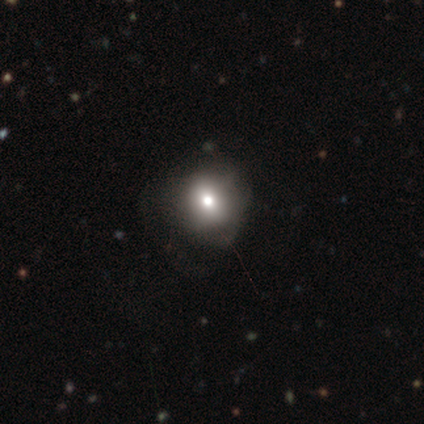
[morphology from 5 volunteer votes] This appears to be a smooth galaxy with no disk features (60%) that is in between round and cigar-shaped (67%). Merging: none (75%).